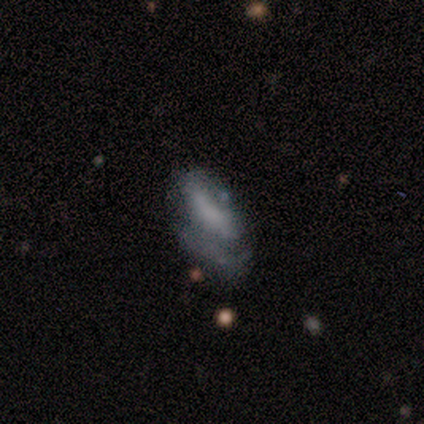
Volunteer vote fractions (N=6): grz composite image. It shows a featured or disk galaxy (67%) with no bar (50%), 1 (50%, tied with can't tell) tight (50%, tied with loose) spiral arms (50%, tied with no) and a moderate central bulge (50%, tied with none). Merging: major disturbance (83%).